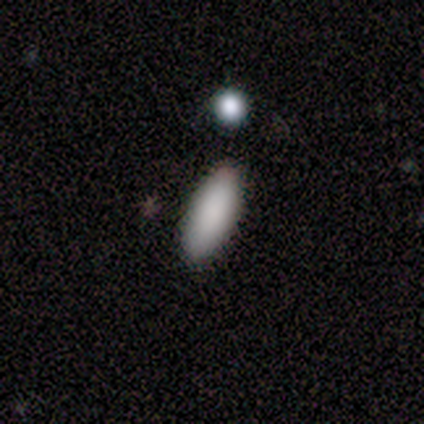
Smooth or featured: smooth — 100%
How rounded: in between — 60% (cigar-shaped — 40%)
Merging: none — 100%